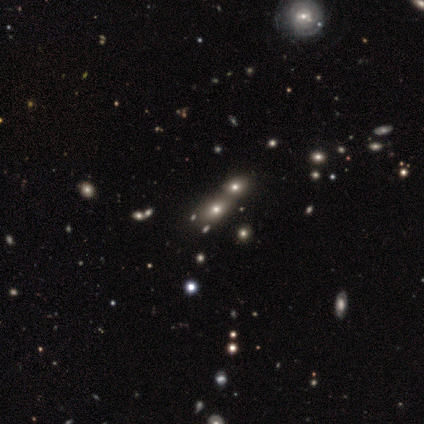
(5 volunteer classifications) star or artifact 60%, smooth 40%, featured or disk 0%.